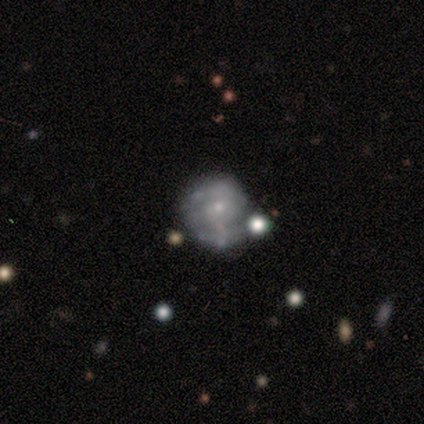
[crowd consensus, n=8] Smooth or featured? featured or disk (88%)
Edge-on disk? no (100%)
Bar? no (86%)
Spiral arms? yes (71%)
Spiral winding? tight (40%, tied with loose)
Spiral arm count? 2 (80%)
Bulge size? small (86%)
Merging? none (43%, tied with minor disturbance)